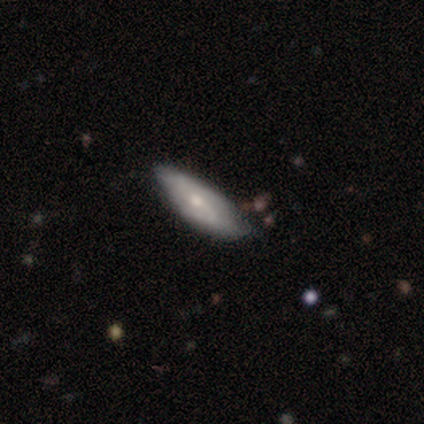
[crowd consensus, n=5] Smooth or featured? 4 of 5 (80%) said smooth. How rounded? 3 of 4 (75%) said cigar-shaped. Merging? 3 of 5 (60%) said none.